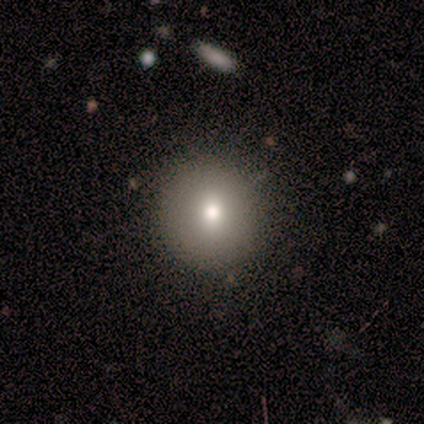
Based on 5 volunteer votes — Smooth or featured?
  - smooth: 80% *
  - star or artifact: 20%
  - featured or disk: 0%
How rounded?
  - round: 100% *
  - in between: 0%
  - cigar-shaped: 0%
Merging?
  - none: 75% *
  - minor disturbance: 25%
  - major disturbance: 0%
  - merger: 0%